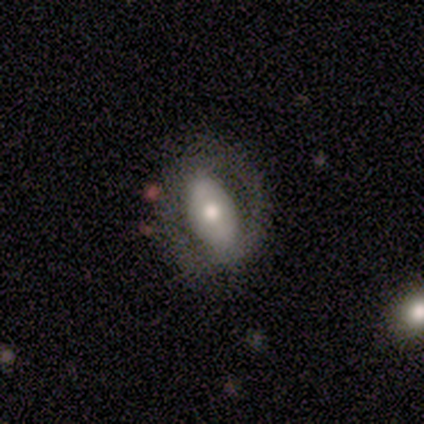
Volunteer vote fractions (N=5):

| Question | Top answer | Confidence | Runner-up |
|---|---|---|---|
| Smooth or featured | featured or disk | 100% | — |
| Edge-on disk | no | 100% | — |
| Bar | no | 60% | strong (20%) |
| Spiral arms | no | 100% | — |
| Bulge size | moderate | 80% | large (20%) |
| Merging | none | 60% | minor disturbance (20%) |